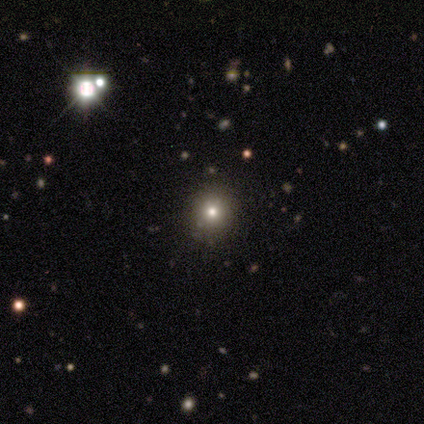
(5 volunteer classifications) Morphology: type=smooth (60%); roundness=round (67%); merging=none (67%).